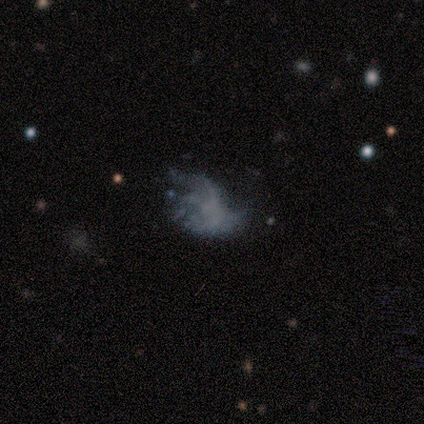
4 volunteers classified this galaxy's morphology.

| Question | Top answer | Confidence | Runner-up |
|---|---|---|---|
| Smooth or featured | featured or disk | 50% | smooth (25%) |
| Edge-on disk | no | 100% | — |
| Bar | no | 100% | — |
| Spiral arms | yes | 100% | — |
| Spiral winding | loose | 100% | — |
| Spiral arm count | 3 | 50% | tied: can't tell (50%) |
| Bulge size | none | 100% | — |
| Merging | major disturbance | 67% | merger (33%) |